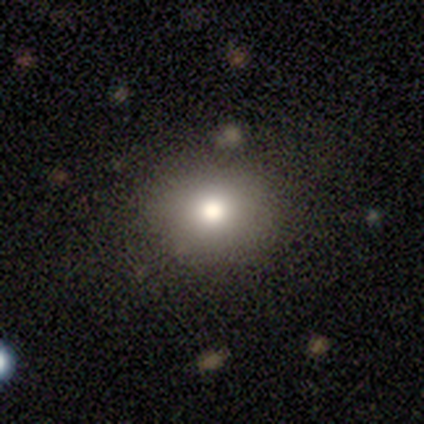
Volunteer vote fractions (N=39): A smooth galaxy with no disk features (74%) that is round (93%).

Vote fractions:
- Smooth or featured? smooth: 74% / star or artifact: 15% / featured or disk: 10%
- How rounded? round: 93% / in between: 7% / cigar-shaped: 0%
- Merging? none: 73% / minor disturbance: 27% / major disturbance: 0% / merger: 0%